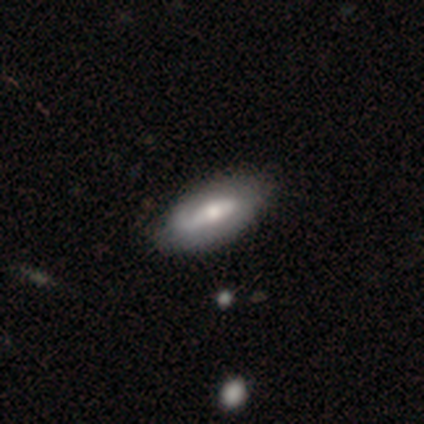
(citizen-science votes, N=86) This is possibly a smooth galaxy (48%). How rounded: clearly in between (85%). Merging: likely none (79%).